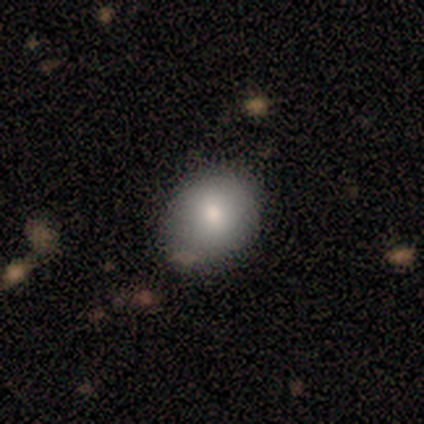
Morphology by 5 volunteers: smooth 60%, featured or disk 40%, star or artifact 0%. Down the decision tree: how rounded — round (67%); merging — none (100%).